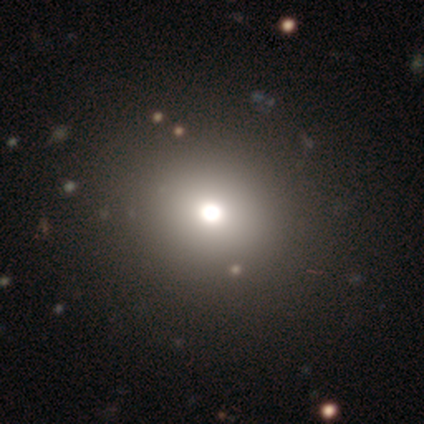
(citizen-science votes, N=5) Volunteers were most divided on "how rounded": round: 75%, in between: 25%, cigar-shaped: 0%. More confident: merging — none (100%); smooth or featured — smooth (80%).